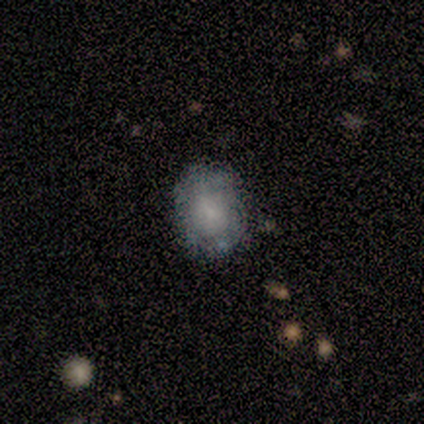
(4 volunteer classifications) smooth_or_featured: smooth (p=0.50) [tied with: featured or disk p=0.50]
how_rounded: in between (p=1.00)
merging: none (p=1.00)